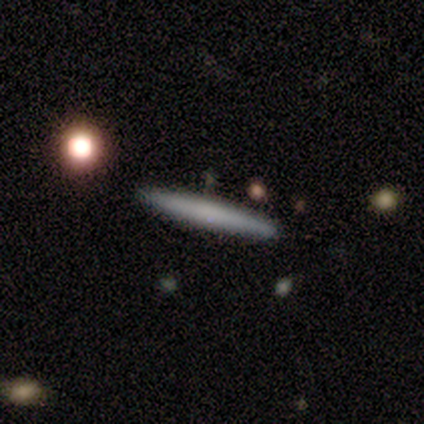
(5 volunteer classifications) Smooth or featured: smooth — 80% (featured or disk — 20%)
How rounded: cigar-shaped — 100%
Merging: none — 100%